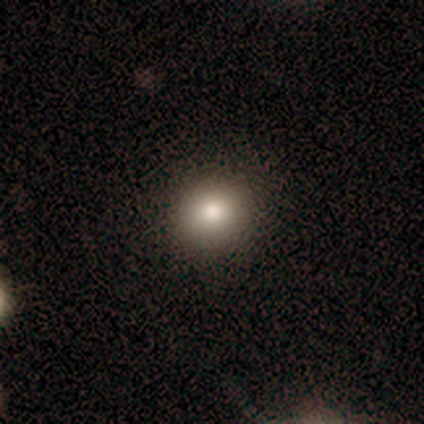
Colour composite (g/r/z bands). It shows a smooth galaxy with no disk features (76%) that is round (86%). Merging: none (95%).